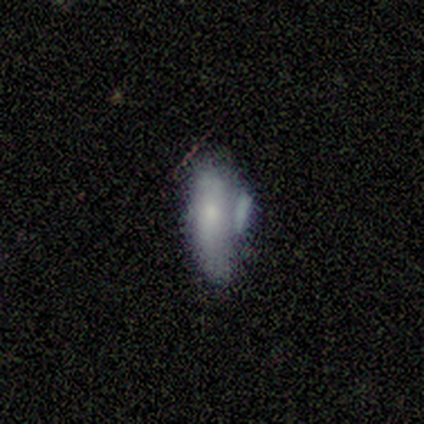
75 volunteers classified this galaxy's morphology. A smooth galaxy with no disk features (64%) that is in between round and cigar-shaped (79%).

Vote fractions:
- Smooth or featured? smooth: 64% / featured or disk: 32% / star or artifact: 4%
- How rounded? in between: 79% / cigar-shaped: 19% / round: 2%
- Merging? minor disturbance: 40% / none: 24% / merger: 24% / major disturbance: 12%